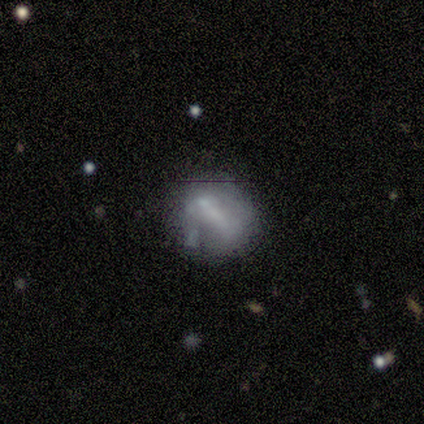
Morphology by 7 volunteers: smooth 71%, featured or disk 14%, star or artifact 14%. Down the decision tree: how rounded — in between (60%); merging — none (50%, tied with minor disturbance).